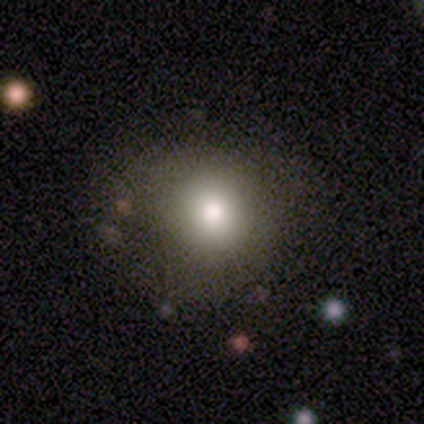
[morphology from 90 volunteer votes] smooth_or_featured: smooth (p=0.71) [alt: star or artifact p=0.18]
how_rounded: round (p=0.95) [alt: in between p=0.05]
merging: none (p=0.77) [alt: minor disturbance p=0.14]